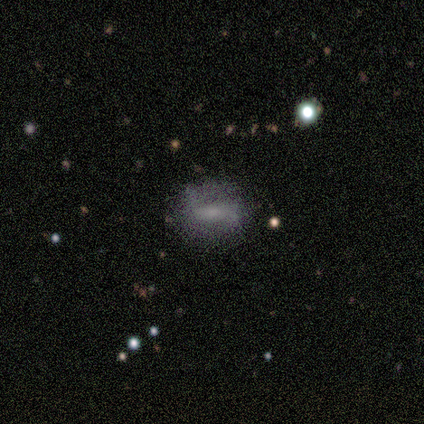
Smooth or featured? smooth (80%)
How rounded? cigar-shaped (50%)
Merging? none (60%)